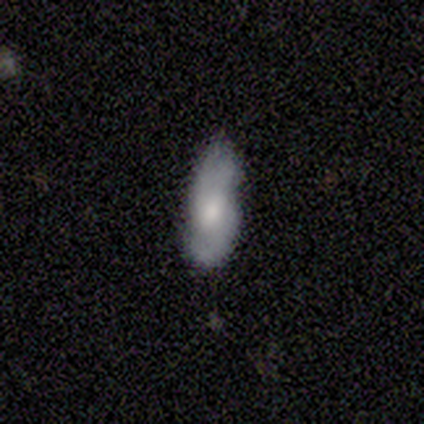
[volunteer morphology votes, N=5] type=smooth (40%, tied with featured or disk); roundness=in between (100%); merging=none (75%).